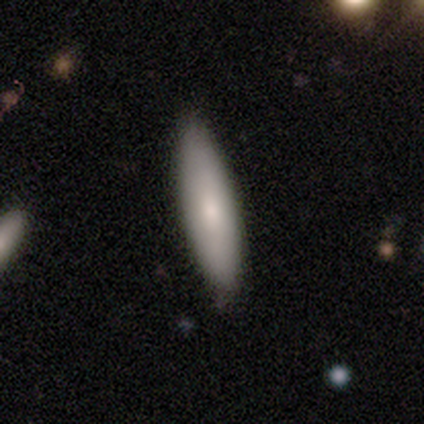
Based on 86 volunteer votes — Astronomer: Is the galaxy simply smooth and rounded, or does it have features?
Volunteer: smooth — 80%.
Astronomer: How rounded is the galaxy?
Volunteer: cigar-shaped — 55% (runner-up: in between, 45%).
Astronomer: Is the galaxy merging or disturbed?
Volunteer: none — 89%.